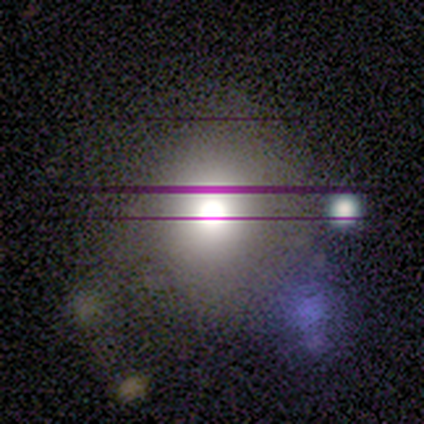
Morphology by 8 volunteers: Smooth or featured: smooth — 62% (star or artifact — 38%)
How rounded: round — 80% (in between — 20%)
Merging: none — 40% (tied with minor disturbance — 40%)